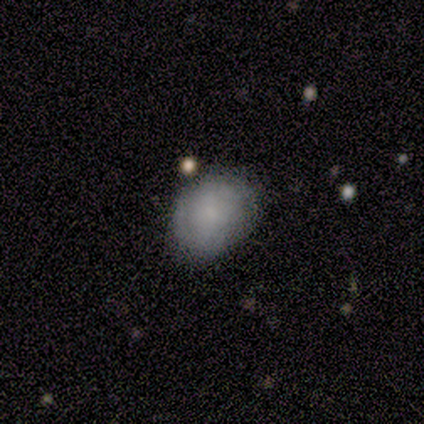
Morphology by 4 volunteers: A smooth galaxy with no disk features (75%) that is in between round and cigar-shaped (100%).

Vote fractions:
- Smooth or featured? smooth: 75% / star or artifact: 25% / featured or disk: 0%
- How rounded? in between: 100% / round: 0% / cigar-shaped: 0%
- Merging? minor disturbance: 67% / none: 33% / major disturbance: 0% / merger: 0%